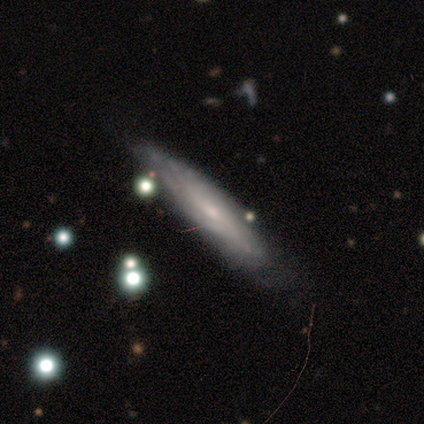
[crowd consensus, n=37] Q: Smooth or featured?
A: featured or disk (65%); runner-up: smooth (27%)
Q: Edge-on disk?
A: yes (50%); tied with: no (50%)
Q: Edge-on bulge?
A: none (58%); runner-up: rounded (33%)
Q: Merging?
A: none (56%); runner-up: minor disturbance (38%)